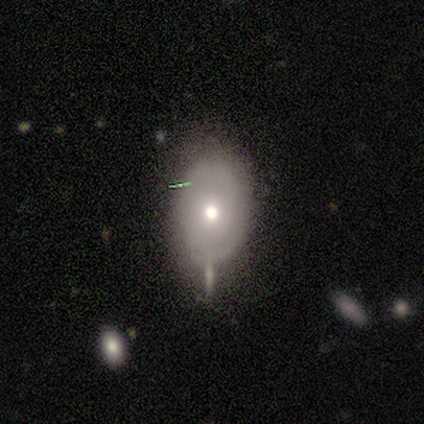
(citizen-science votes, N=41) Smooth or featured? 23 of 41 (56%) said smooth. How rounded? 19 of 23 (83%) said in between. Merging? 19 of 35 (54%) said none.